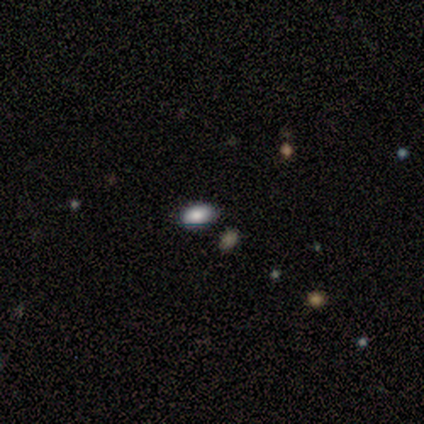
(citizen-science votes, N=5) This is clearly a smooth galaxy (100%). How rounded: clearly in between (100%). Merging: clearly none (100%).